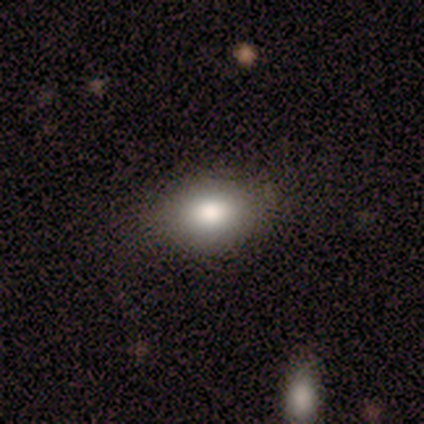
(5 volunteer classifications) Smooth or featured? smooth (80%)
How rounded? in between (75%)
Merging? none (100%)